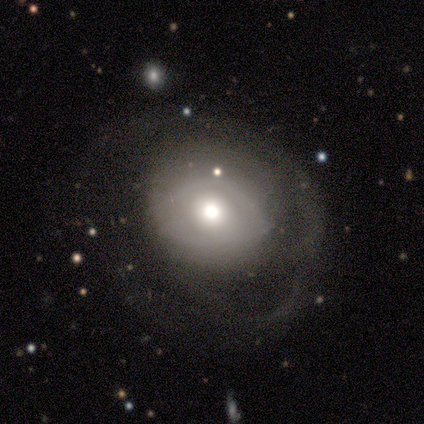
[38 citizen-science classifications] Smooth or featured: smooth — 63% (featured or disk — 37%)
How rounded: round — 75% (in between — 25%)
Merging: none — 42% (major disturbance — 34%)